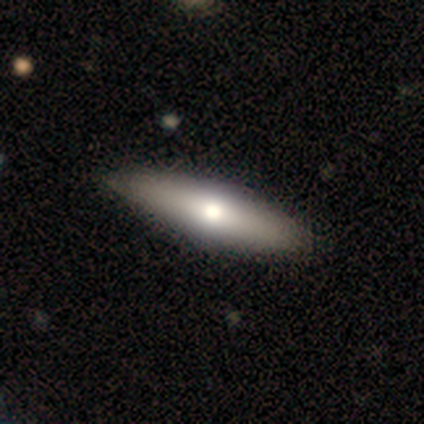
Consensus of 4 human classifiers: Smooth or featured? smooth (75%)
How rounded? in between (67%)
Merging? none (100%)